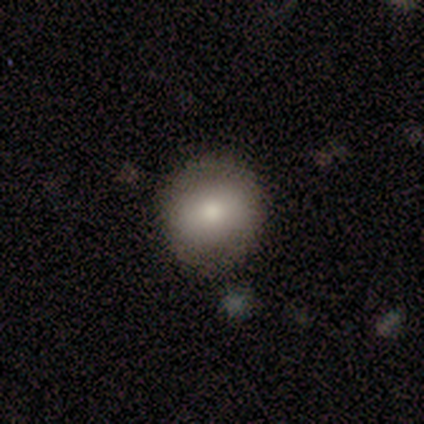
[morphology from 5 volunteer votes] Smooth or featured?
  - smooth: 100% *
  - featured or disk: 0%
  - star or artifact: 0%
How rounded?
  - round: 100% *
  - in between: 0%
  - cigar-shaped: 0%
Merging?
  - none: 80% *
  - major disturbance: 20%
  - minor disturbance: 0%
  - merger: 0%